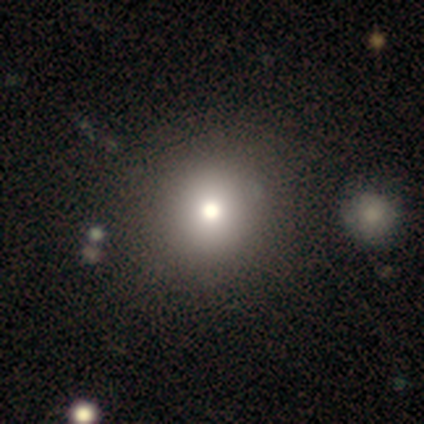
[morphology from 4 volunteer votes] Q: Smooth or featured?
A: smooth (50%); runner-up: featured or disk (25%)
Q: How rounded?
A: round (100%)
Q: Merging?
A: none (100%)